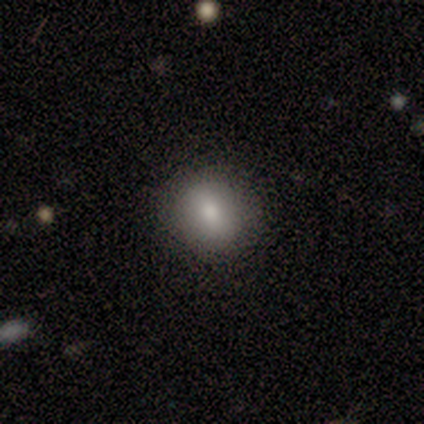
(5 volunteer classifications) This appears to be a smooth galaxy with no disk features (100%) that is round (80%). Merging: none (60%).